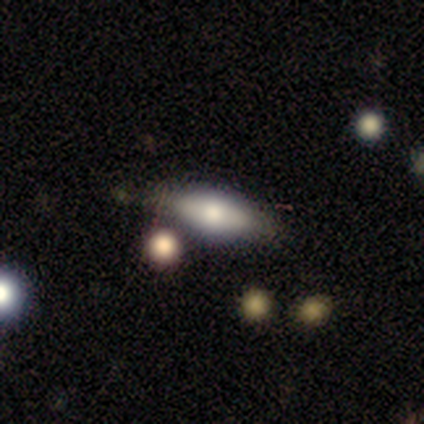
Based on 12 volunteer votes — A smooth galaxy with no disk features (58%) that is in between round and cigar-shaped (86%).

Vote fractions:
- Smooth or featured? smooth: 58% / featured or disk: 42% / star or artifact: 0%
- How rounded? in between: 86% / cigar-shaped: 14% / round: 0%
- Merging? none: 75% / minor disturbance: 17% / merger: 8% / major disturbance: 0%